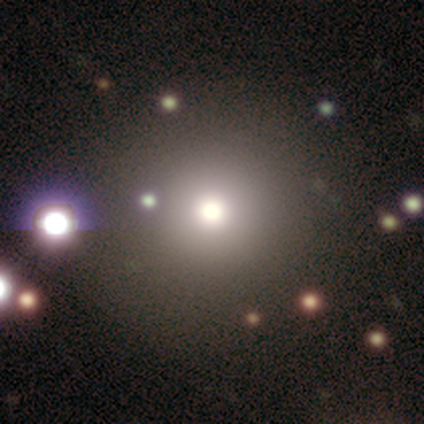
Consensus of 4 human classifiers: Volunteers were most divided on "how rounded": round: 67%, in between: 33%, cigar-shaped: 0%. More confident: merging — none (100%); smooth or featured — smooth (75%).